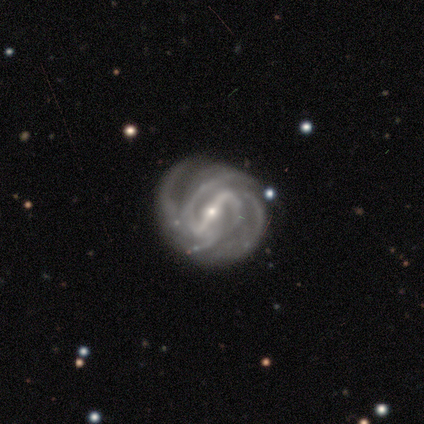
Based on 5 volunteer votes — smooth-or-featured: featured or disk: 100% | smooth: 0% | star or artifact: 0%
  disk-edge-on: no: 100% | yes: 0%
    bar: strong: 60% | weak: 20% | no: 20%
    has-spiral-arms: yes: 100% | no: 0%
      spiral-winding: medium: 60% | tight: 40% | loose: 0%
      spiral-arm-count: 4: 60% | 2: 40% | 1: 0% | 3: 0% | more than 4: 0% | can't tell: 0%
    bulge-size: small: 100% | dominant: 0% | large: 0% | moderate: 0% | none: 0%
  merging: none: 100% | minor disturbance: 0% | major disturbance: 0% | merger: 0%